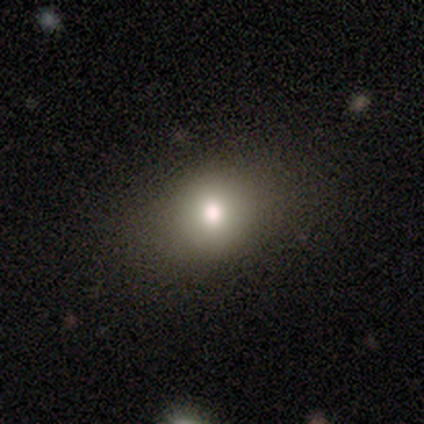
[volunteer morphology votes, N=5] Smooth or featured: smooth — 80% (star or artifact — 20%)
How rounded: in between — 75% (round — 25%)
Merging: none — 75% (minor disturbance — 25%)